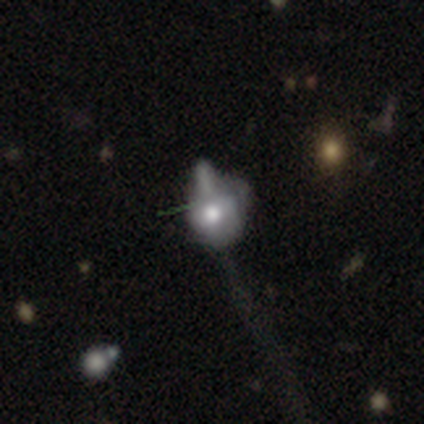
Morphology: type=smooth (60%); roundness=in between (67%); merging=minor disturbance (40%, tied with merger).